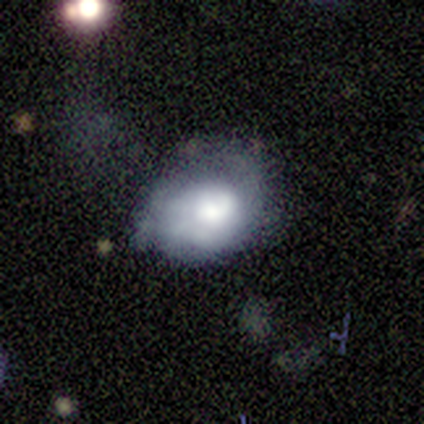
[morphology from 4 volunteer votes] A featured or disk galaxy (75%) with no bar (67%), no spiral arms (67%) and a dominant central bulge (33%, tied with large and none). Merging: none (33%, tied with minor disturbance and major disturbance).